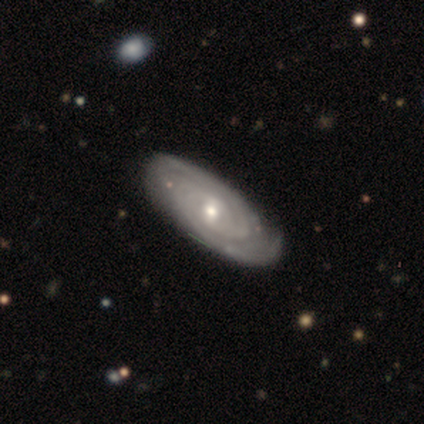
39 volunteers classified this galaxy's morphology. type=featured or disk (90%); edge-on=no (91%); bar=weak (62%); spiral arms=yes (100%); winding=tight (88%); arm count=2 (50%); bulge=small (56%); merging=none (68%).